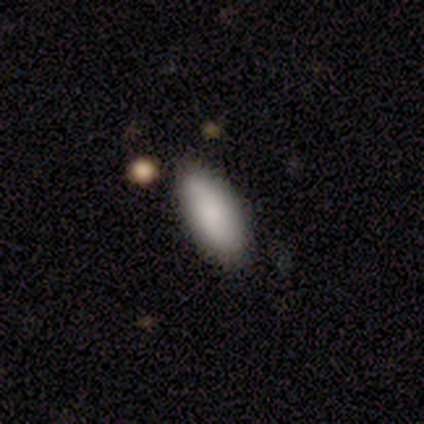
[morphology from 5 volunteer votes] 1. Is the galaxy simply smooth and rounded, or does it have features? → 60% smooth, 40% featured or disk, 0% star or artifact.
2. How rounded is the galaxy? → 67% in between, 33% cigar-shaped, 0% round.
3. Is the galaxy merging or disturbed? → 100% none, 0% minor disturbance, 0% major disturbance, 0% merger.